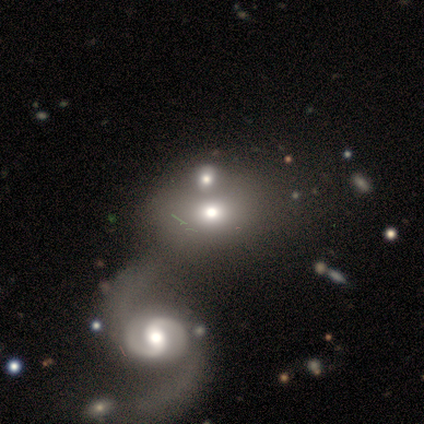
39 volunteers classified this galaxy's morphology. Smooth or featured?
  - smooth: 64% *
  - featured or disk: 31%
  - star or artifact: 5%
How rounded?
  - in between: 72% *
  - round: 28%
  - cigar-shaped: 0%
Merging?
  - merger: 59% *
  - minor disturbance: 11%
  - none: 3%
  - major disturbance: 3%